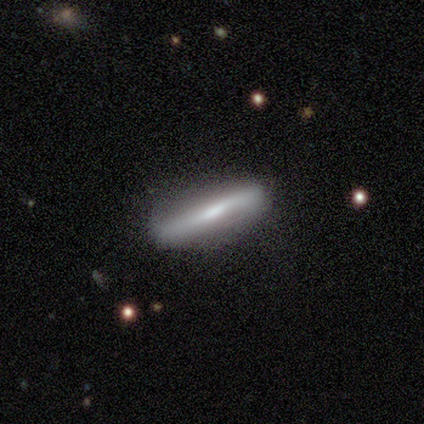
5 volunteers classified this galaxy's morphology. Q: Smooth or featured?
A: featured or disk (60%); runner-up: smooth (40%)
Q: Edge-on disk?
A: yes (100%)
Q: Edge-on bulge?
A: none (100%)
Q: Merging?
A: none (100%)